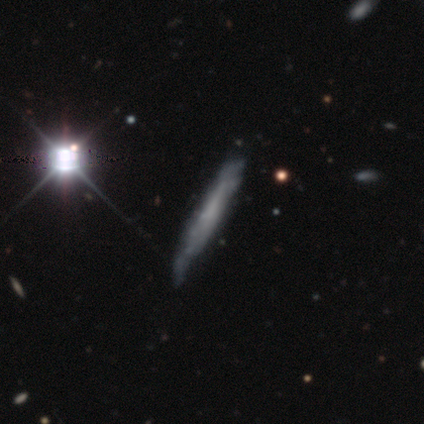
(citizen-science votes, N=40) Morphology: type=featured or disk (68%); edge-on=yes (67%); edge-on bulge=none (89%); merging=none (39%).